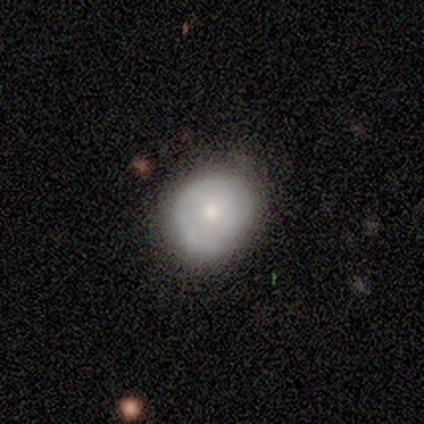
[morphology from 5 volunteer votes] A featured or disk galaxy (60%) with no bar (100%), 1 (50%, tied with 2) tight (100%) spiral arms (67%) and a moderate central bulge (67%).

Vote fractions:
- Smooth or featured? featured or disk: 60% / smooth: 40% / star or artifact: 0%
- Edge-on disk? no: 100% / yes: 0%
- Bar? no: 100% / strong: 0% / weak: 0%
- Spiral arms? yes: 67% / no: 33%
- Spiral winding? tight: 100% / medium: 0% / loose: 0%
- Spiral arm count? 1: 50% (tied) / 2: 50% (tied) / 3: 0% / 4: 0% / more than 4: 0% / can't tell: 0%
- Bulge size? moderate: 67% / small: 33% / dominant: 0% / large: 0% / none: 0%
- Merging? none: 80% / minor disturbance: 20% / major disturbance: 0% / merger: 0%